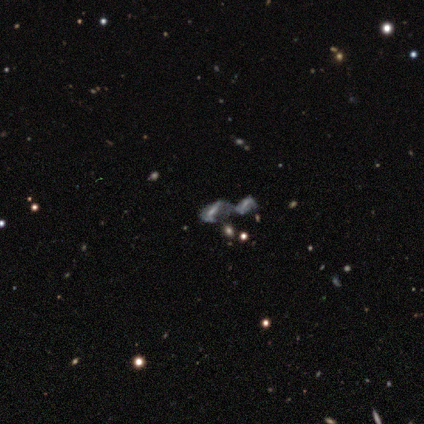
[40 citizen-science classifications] Smooth or featured: star or artifact — 42% (featured or disk — 40%)